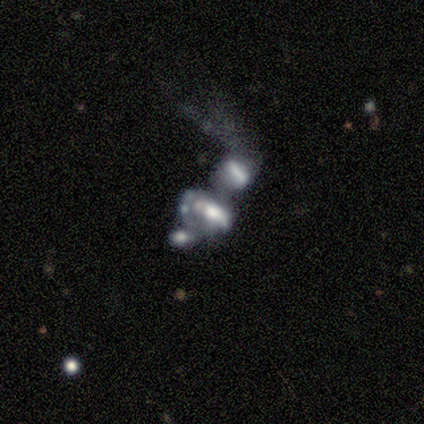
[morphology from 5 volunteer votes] A featured or disk galaxy (60%) with no bar (67%), no spiral arms (100%) and a moderate central bulge (67%).

Vote fractions:
- Smooth or featured? featured or disk: 60% / smooth: 40% / star or artifact: 0%
- Edge-on disk? no: 100% / yes: 0%
- Bar? no: 67% / strong: 33% / weak: 0%
- Spiral arms? no: 100% / yes: 0%
- Bulge size? moderate: 67% / large: 33% / dominant: 0% / small: 0% / none: 0%
- Merging? none: 40% (tied) / merger: 40% (tied) / major disturbance: 20% / minor disturbance: 0%